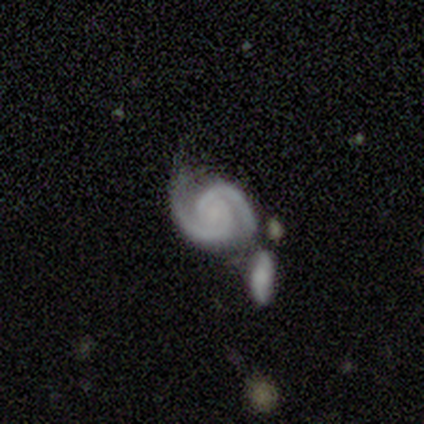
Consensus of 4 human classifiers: This is likely a featured or disk galaxy (75%). It is clearly not viewed edge-on (100%). Bar: likely no (67%). Spiral arm pattern: clearly yes (100%). Spiral arm count: clearly 2 (100%). Spiral winding: likely tight (67%). Central bulge: marginally moderate (33%, tied with small and none). Merging: possibly minor disturbance (50%, tied with merger).